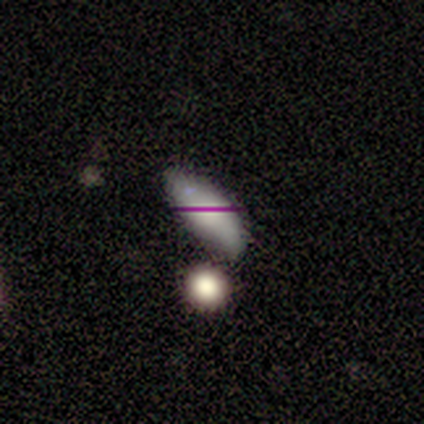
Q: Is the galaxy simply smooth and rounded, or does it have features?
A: smooth — 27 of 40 (68%).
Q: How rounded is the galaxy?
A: in between — 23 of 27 (85%).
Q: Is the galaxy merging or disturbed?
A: none — 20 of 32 (62%).